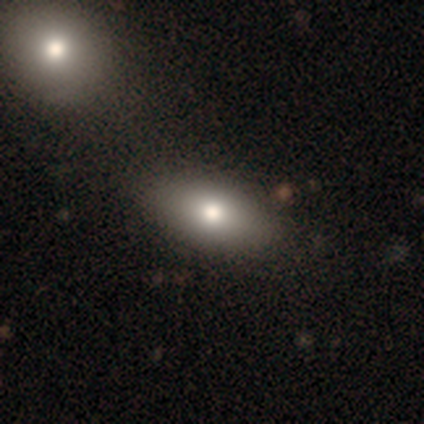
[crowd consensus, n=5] Volunteers were most divided on "smooth or featured": smooth: 80%, featured or disk: 20%, star or artifact: 0%. More confident: how rounded — in between (100%); merging — none (80%).